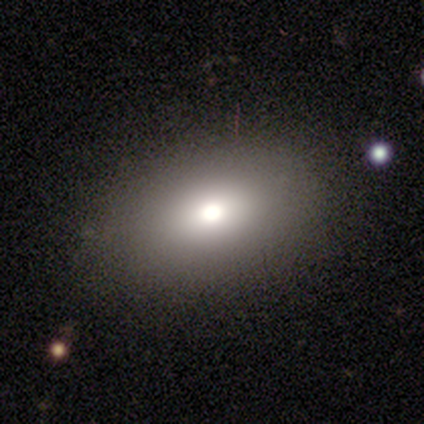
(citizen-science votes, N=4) This appears to be a smooth galaxy with no disk features (75%) that is in between round and cigar-shaped (67%). Merging: none (75%).